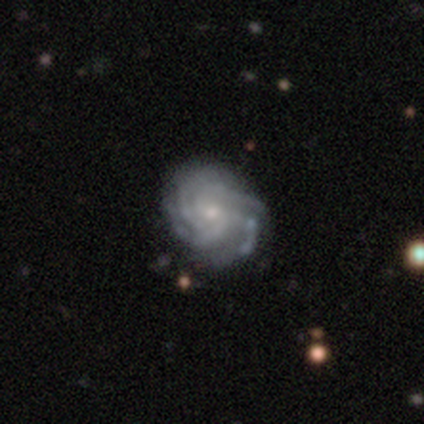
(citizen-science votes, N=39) Volunteers were most divided on "spiral arm count": 4: 56%, can't tell: 22%, 3: 16%, more than 4: 6%, 1: 0%, 2: 0%. More confident: edge-on disk — no (97%); spiral arms — yes (94%); smooth or featured — featured or disk (90%); bar — no (79%); spiral winding — tight (75%); merging — none (74%); bulge size — small (71%).